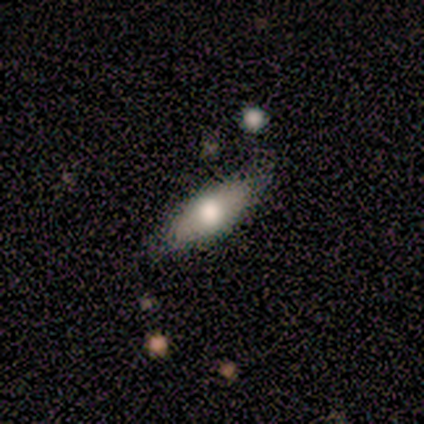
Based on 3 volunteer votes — Morphology: type=smooth (67%); roundness=cigar-shaped (100%); merging=none (67%).